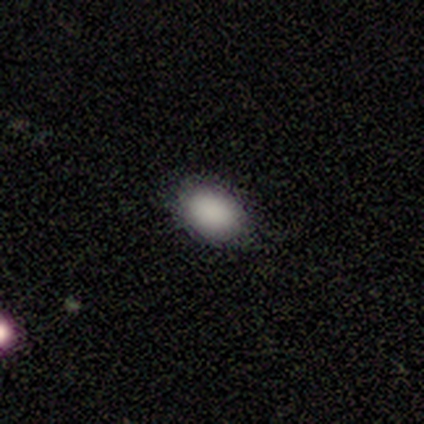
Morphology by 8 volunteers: Smooth or featured? smooth (88%)
How rounded? in between (100%)
Merging? none (100%)